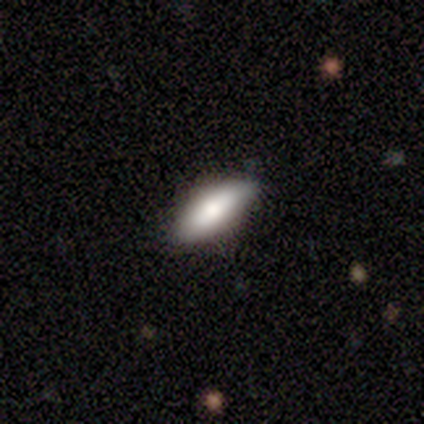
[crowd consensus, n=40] A smooth galaxy with no disk features (68%) that is in between round and cigar-shaped (78%).

Vote fractions:
- Smooth or featured? smooth: 68% / featured or disk: 20% / star or artifact: 12%
- How rounded? in between: 78% / cigar-shaped: 22% / round: 0%
- Merging? none: 77% / minor disturbance: 20% / major disturbance: 3% / merger: 0%